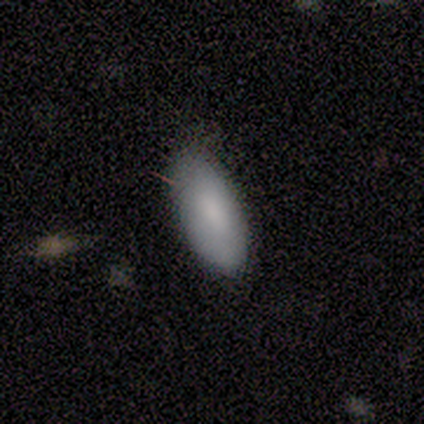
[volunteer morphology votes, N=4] smooth_or_featured: smooth (p=1.00)
how_rounded: in between (p=1.00)
merging: none (p=1.00)